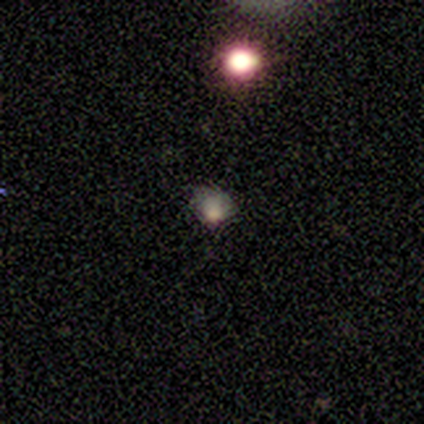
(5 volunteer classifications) Smooth or featured: smooth — 60% (featured or disk — 40%)
How rounded: round — 67% (in between — 33%)
Merging: none — 60% (major disturbance — 40%)